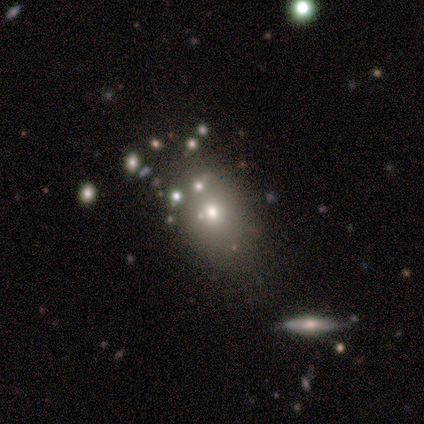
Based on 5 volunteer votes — smooth_or_featured: smooth (p=0.60) [alt: featured or disk p=0.20]
how_rounded: in between (p=0.67) [alt: round p=0.33]
merging: none (p=0.50) [tied with: minor disturbance p=0.50]